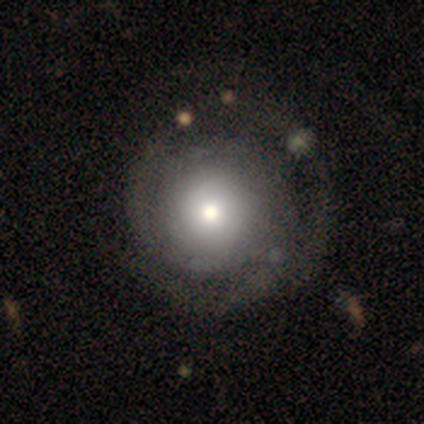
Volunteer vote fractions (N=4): Smooth or featured? 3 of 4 (75%) said featured or disk. Edge-on disk? 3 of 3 (100%) said no. Bar? 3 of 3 (100%) said no. Spiral arms? 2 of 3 (67%) said yes. Spiral winding? 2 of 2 (100%) said tight. Spiral arm count? 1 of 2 (50%, tied with can't tell) said 2. Bulge size? 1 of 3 (33%, tied with large and moderate) said dominant. Merging? 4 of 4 (100%) said none.